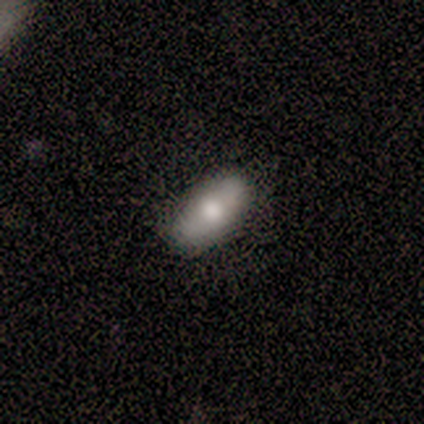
Q: Smooth or featured?
A: featured or disk (100%)
Q: Edge-on disk?
A: no (100%)
Q: Bar?
A: weak (50%); tied with: no (50%)
Q: Spiral arms?
A: no (100%)
Q: Bulge size?
A: moderate (50%); tied with: small (50%)
Q: Merging?
A: none (100%)